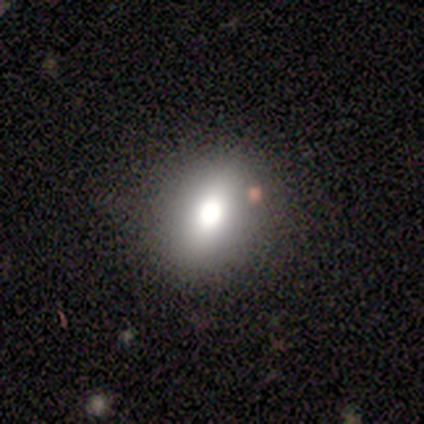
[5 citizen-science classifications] This is clearly a smooth galaxy (80%). How rounded: possibly round (50%, tied with in between). Merging: clearly none (80%).